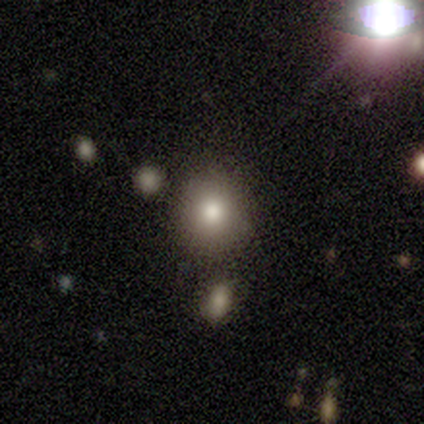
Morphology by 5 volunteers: Smooth or featured? smooth (80%)
How rounded? in between (75%)
Merging? none (80%)